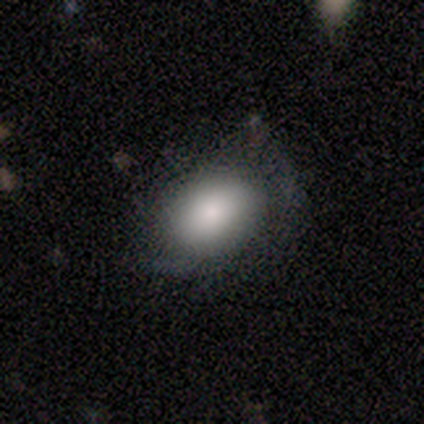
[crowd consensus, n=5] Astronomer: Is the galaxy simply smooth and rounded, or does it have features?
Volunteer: smooth — 80%.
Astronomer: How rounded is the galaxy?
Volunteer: in between — 100%.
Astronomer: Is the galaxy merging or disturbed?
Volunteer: none — 40%, tied with minor disturbance at 40%.